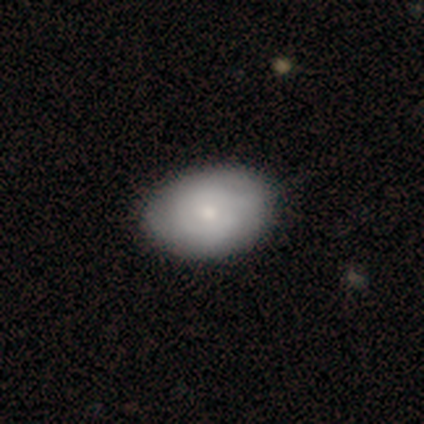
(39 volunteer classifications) A smooth galaxy with no disk features (64%) that is in between round and cigar-shaped (84%). Merging: none (44%).